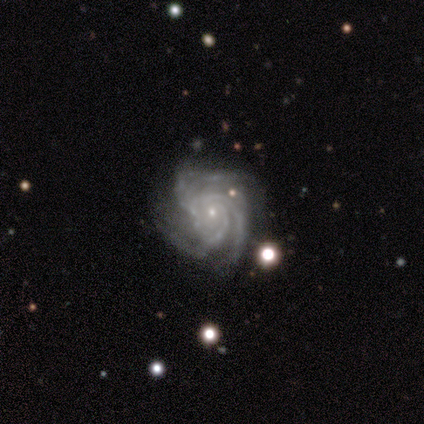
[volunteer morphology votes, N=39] Smooth or featured: featured or disk — 97% (star or artifact — 3%)
Edge-on disk: no — 100%
Bar: no — 87% (weak — 11%)
Spiral arms: yes — 97% (no — 3%)
Spiral winding: tight — 70% (medium — 27%)
Spiral arm count: 3 — 51% (4 — 27%)
Bulge size: small — 84% (moderate — 11%)
Merging: none — 61% (minor disturbance — 21%)